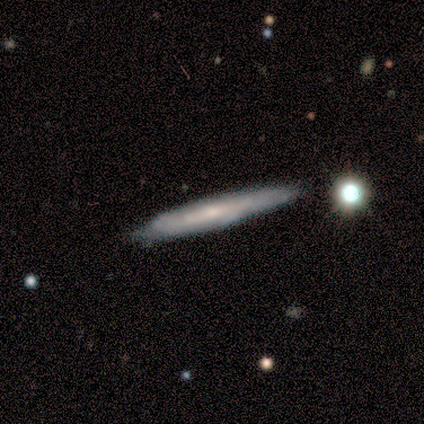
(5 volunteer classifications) Smooth or featured?
  - smooth: 80% *
  - featured or disk: 20%
  - star or artifact: 0%
How rounded?
  - cigar-shaped: 100% *
  - round: 0%
  - in between: 0%
Merging?
  - none: 80% *
  - minor disturbance: 20%
  - major disturbance: 0%
  - merger: 0%